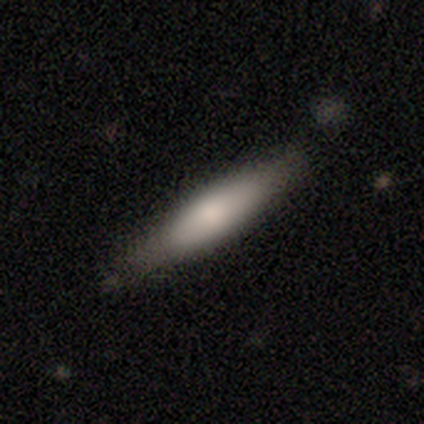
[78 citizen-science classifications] smooth 64%, featured or disk 31%, star or artifact 5%. Down the decision tree: how rounded — cigar-shaped (84%); merging — none (77%).